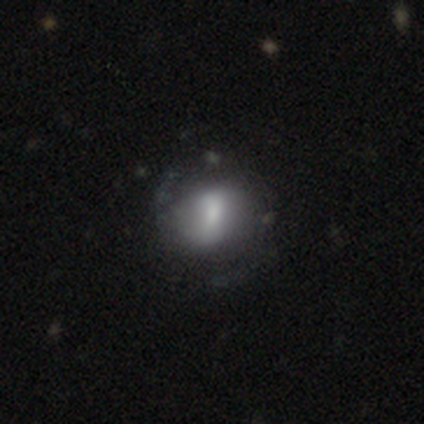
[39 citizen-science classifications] smooth-or-featured: smooth: 54% | featured or disk: 41% | star or artifact: 5%
  how-rounded: in between: 52% | round: 43% | cigar-shaped: 5%
  merging: none: 57% | minor disturbance: 19% | major disturbance: 8% | merger: 3%